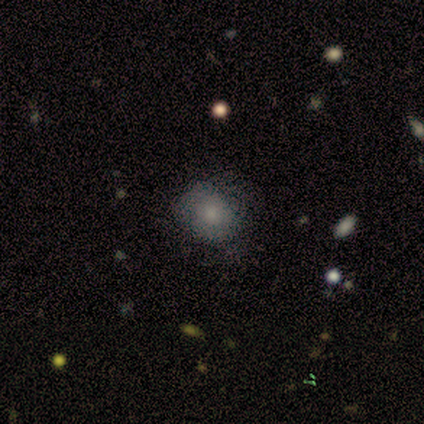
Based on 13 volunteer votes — A smooth galaxy with no disk features (85%) that is round (82%). Merging: none (55%).